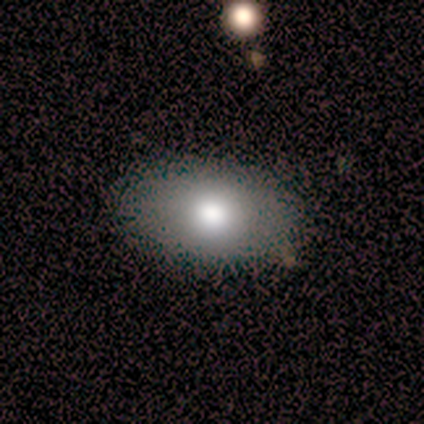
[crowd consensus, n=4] Smooth or featured: smooth — 75% (featured or disk — 25%)
How rounded: in between — 100%
Merging: none — 100%